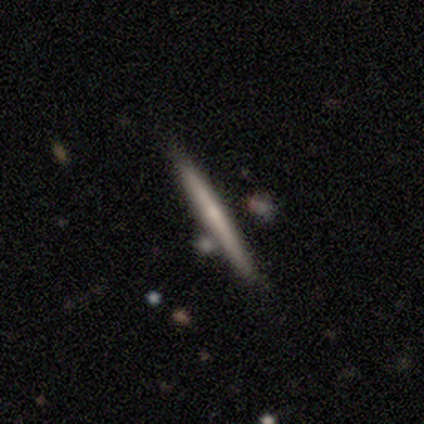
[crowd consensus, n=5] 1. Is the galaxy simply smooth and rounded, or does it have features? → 60% featured or disk, 40% smooth, 0% star or artifact.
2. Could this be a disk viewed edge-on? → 100% yes, 0% no.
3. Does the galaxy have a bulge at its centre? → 67% rounded, 33% boxy, 0% none.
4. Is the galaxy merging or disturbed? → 60% none, 20% minor disturbance, 20% merger, 0% major disturbance.